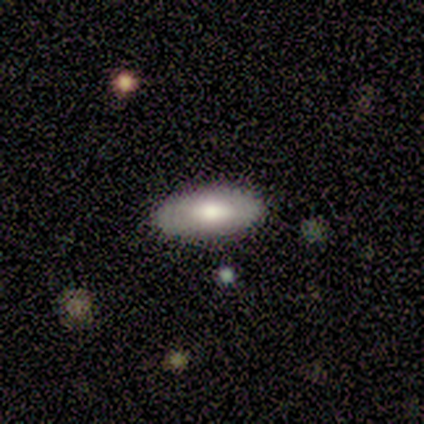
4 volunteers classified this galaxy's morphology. Smooth or featured: smooth — 75% (featured or disk — 25%)
How rounded: in between — 100%
Merging: none — 50% (tied with minor disturbance — 50%)